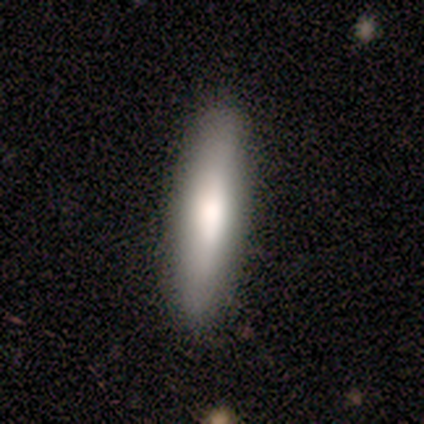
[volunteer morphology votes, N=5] smooth_or_featured: smooth (p=0.80) [alt: star or artifact p=0.20]
how_rounded: cigar-shaped (p=1.00)
merging: none (p=1.00)